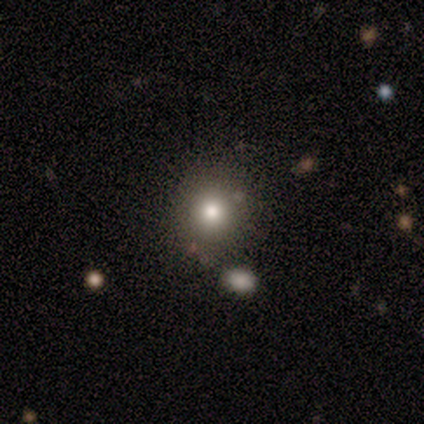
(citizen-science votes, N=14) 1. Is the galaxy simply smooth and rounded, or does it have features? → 79% smooth, 14% star or artifact, 7% featured or disk.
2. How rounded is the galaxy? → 73% round, 27% in between, 0% cigar-shaped.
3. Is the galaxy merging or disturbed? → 92% none, 8% minor disturbance, 0% major disturbance, 0% merger.